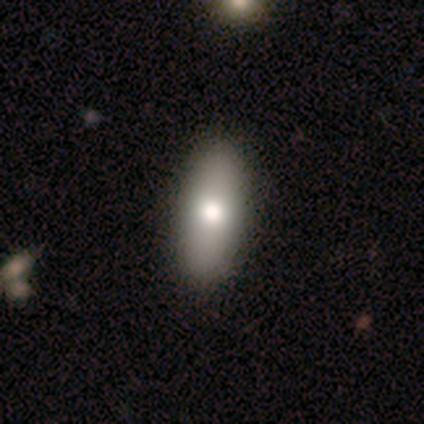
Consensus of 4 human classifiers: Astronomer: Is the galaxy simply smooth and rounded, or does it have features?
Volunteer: smooth — 50%, tied with star or artifact at 50%.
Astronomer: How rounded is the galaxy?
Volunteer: in between — 50%, tied with cigar-shaped at 50%.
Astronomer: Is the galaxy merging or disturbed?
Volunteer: none — 100%.